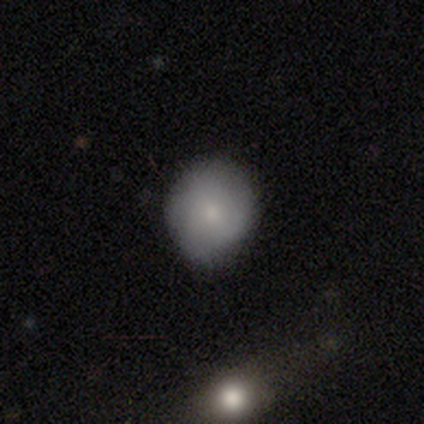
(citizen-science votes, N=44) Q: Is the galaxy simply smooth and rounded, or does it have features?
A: smooth — 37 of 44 (84%).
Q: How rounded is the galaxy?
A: round — 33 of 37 (89%).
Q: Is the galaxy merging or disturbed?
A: none — 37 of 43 (86%).